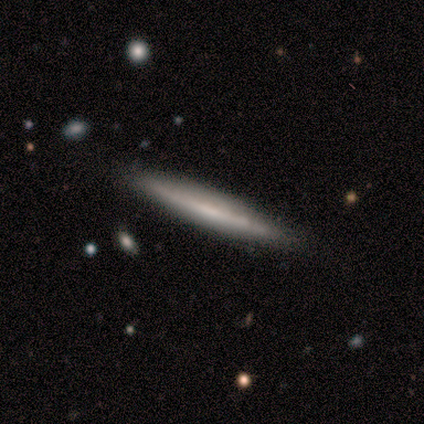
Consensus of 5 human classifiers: A featured or disk galaxy (80%) viewed edge-on (100%) with no central bulge (100%).

Vote fractions:
- Smooth or featured? featured or disk: 80% / smooth: 20% / star or artifact: 0%
- Edge-on disk? yes: 100% / no: 0%
- Edge-on bulge? none: 100% / boxy: 0% / rounded: 0%
- Merging? none: 100% / minor disturbance: 0% / major disturbance: 0% / merger: 0%